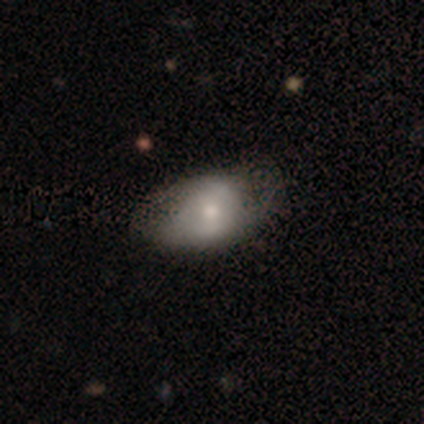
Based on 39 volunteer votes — Smooth or featured?
  - smooth: 69% *
  - featured or disk: 28%
  - star or artifact: 3%
How rounded?
  - in between: 81% *
  - round: 19%
  - cigar-shaped: 0%
Merging?
  - none: 29% *
  - major disturbance: 16%
  - minor disturbance: 13%
  - merger: 5%